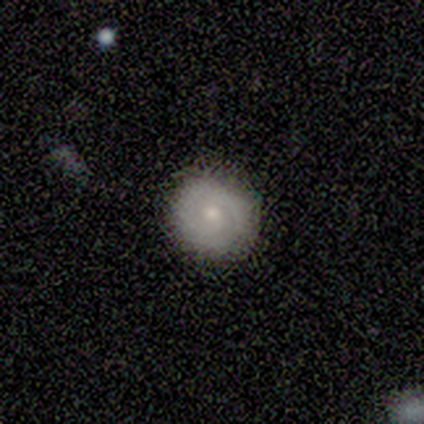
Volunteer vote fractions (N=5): Morphology: type=featured or disk (80%); edge-on=no (100%); bar=no (100%); spiral arms=yes (75%); winding=tight (67%); arm count=2 (67%); bulge=moderate (50%, tied with small); merging=none (100%).